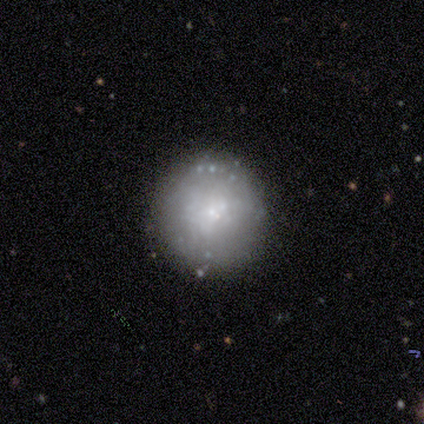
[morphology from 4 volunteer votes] type=smooth (75%); roundness=round (100%); merging=none (100%).